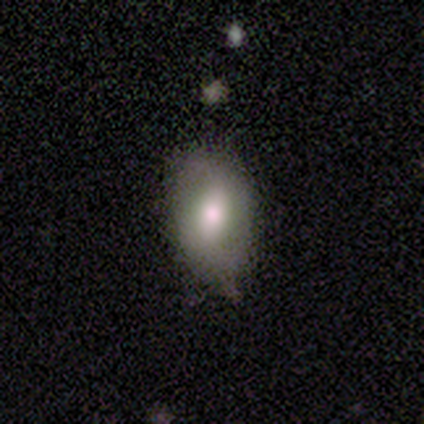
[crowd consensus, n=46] Morphology: type=smooth (52%); roundness=in between (96%); merging=none (51%).